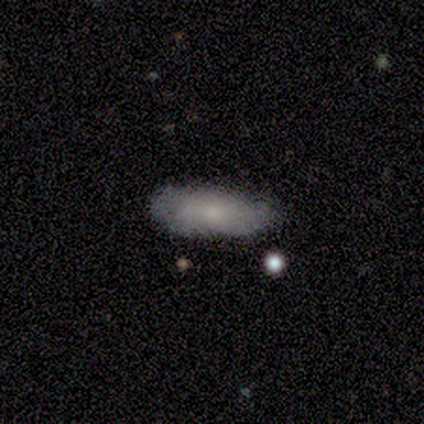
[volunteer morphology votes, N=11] Q: Smooth or featured?
A: smooth (64%); runner-up: featured or disk (36%)
Q: How rounded?
A: in between (57%); runner-up: cigar-shaped (43%)
Q: Merging?
A: none (82%); runner-up: minor disturbance (18%)